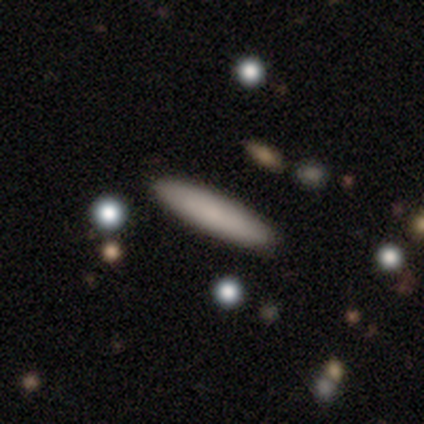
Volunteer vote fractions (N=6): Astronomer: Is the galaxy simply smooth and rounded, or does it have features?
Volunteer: smooth — 83%.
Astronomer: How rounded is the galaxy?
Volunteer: cigar-shaped — 100%.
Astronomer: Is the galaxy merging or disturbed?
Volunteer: none — 100%.